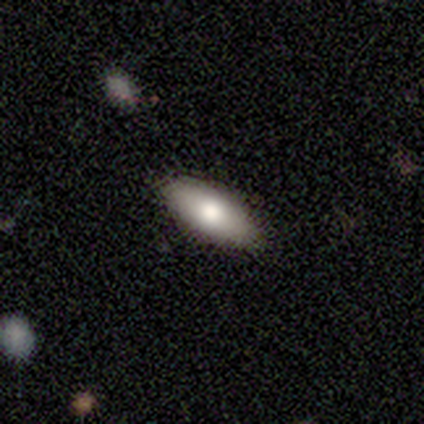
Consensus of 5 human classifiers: This is likely a featured or disk galaxy (60%). It is likely not viewed edge-on (67%). Bar: clearly no (100%). Spiral arm pattern: clearly no (100%). Central bulge: possibly large (50%, tied with moderate). Merging: clearly none (80%).